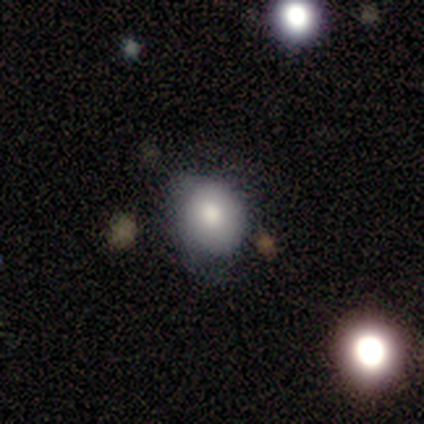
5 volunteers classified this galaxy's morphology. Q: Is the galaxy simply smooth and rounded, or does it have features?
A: smooth — 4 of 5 (80%).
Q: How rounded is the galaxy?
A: round — 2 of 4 (50%, tied with in between).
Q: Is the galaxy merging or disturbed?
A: none — 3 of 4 (75%).